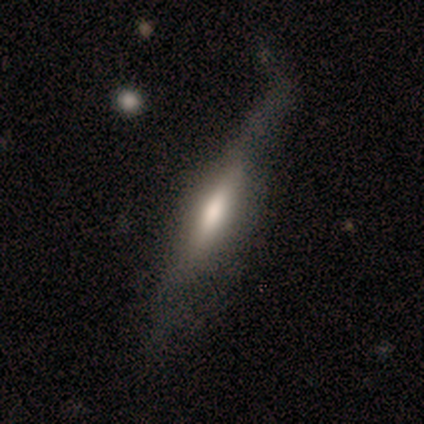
Smooth or featured? featured or disk (60%)
Edge-on disk? yes (100%)
Edge-on bulge? boxy (33%, tied with none and rounded)
Merging? none (80%)